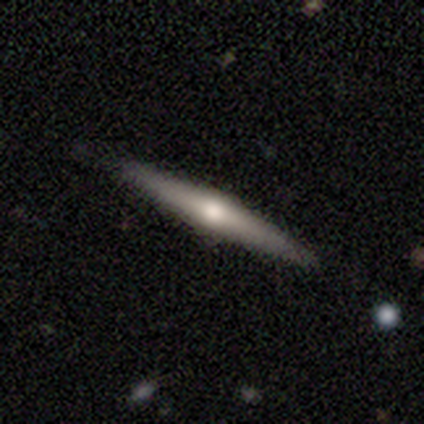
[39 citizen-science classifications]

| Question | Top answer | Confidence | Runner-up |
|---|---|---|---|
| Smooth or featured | featured or disk | 74% | smooth (21%) |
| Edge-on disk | yes | 100% | — |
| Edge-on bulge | rounded | 79% | boxy (14%) |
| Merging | none | 81% | minor disturbance (19%) |